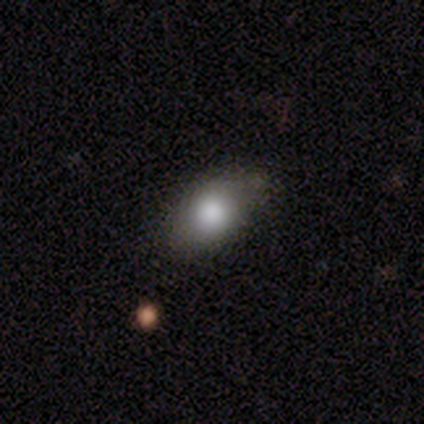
Volunteers were most divided on "merging": none: 70%, minor disturbance: 30%, major disturbance: 0%, merger: 0%. More confident: how rounded — in between (100%); smooth or featured — smooth (75%).